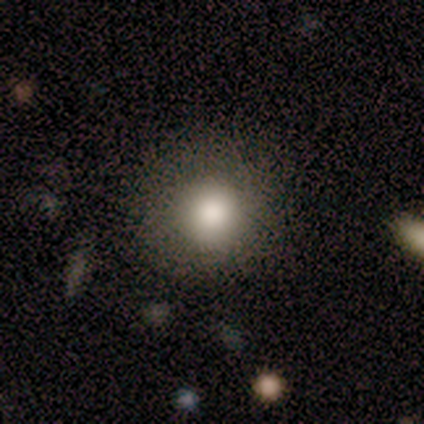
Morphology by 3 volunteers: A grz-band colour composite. It shows a star or artifact, not a galaxy (67%).